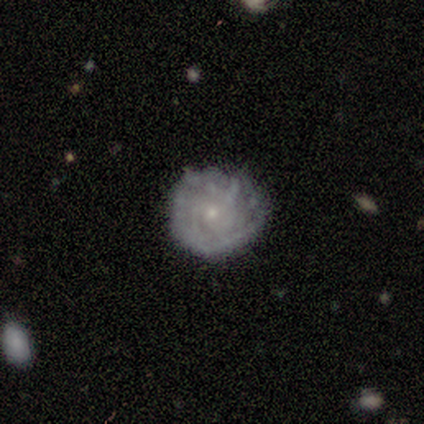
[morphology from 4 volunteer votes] featured or disk 100%, smooth 0%, star or artifact 0%. Down the decision tree: edge-on disk — no (100%); bar — no (100%); spiral arms — yes (50%, tied with no); spiral arm count — can't tell (100%); spiral winding — tight (50%, tied with medium); bulge size — small (100%); merging — none (75%).